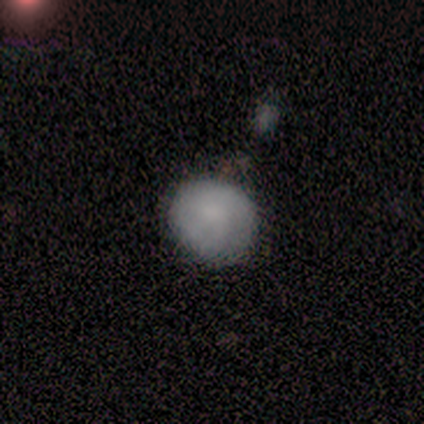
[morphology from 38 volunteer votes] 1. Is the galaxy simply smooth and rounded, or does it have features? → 63% smooth, 29% featured or disk, 8% star or artifact.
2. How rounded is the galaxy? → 79% round, 21% in between, 0% cigar-shaped.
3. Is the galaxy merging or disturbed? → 54% none, 14% minor disturbance, 0% major disturbance, 0% merger.